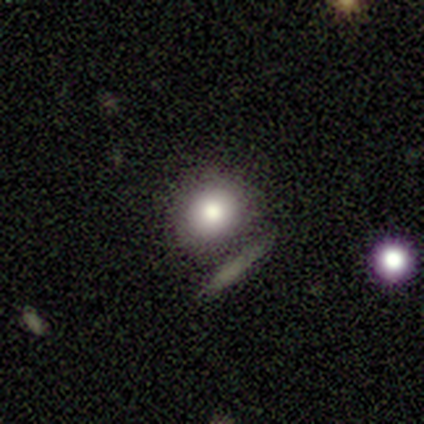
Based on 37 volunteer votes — Volunteers were most divided on "merging": none: 62%, minor disturbance: 12%, major disturbance: 12%, merger: 12%. More confident: smooth or featured — smooth (78%); how rounded — round (76%).